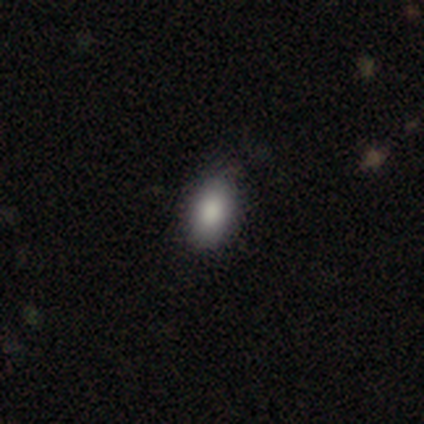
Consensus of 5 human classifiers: Overall: smooth (80%). How rounded: in between (100%). Merging: none (75%).